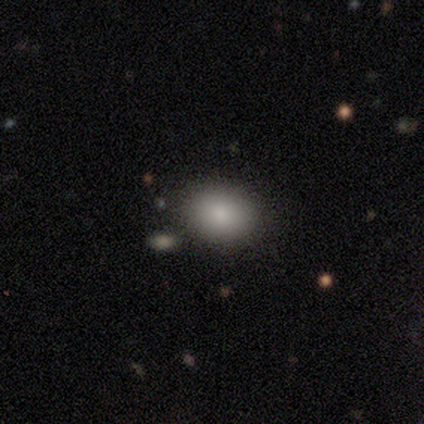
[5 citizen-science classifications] Smooth or featured?
  - smooth: 100% *
  - featured or disk: 0%
  - star or artifact: 0%
How rounded?
  - in between: 80% *
  - round: 20%
  - cigar-shaped: 0%
Merging?
  - none: 80% *
  - minor disturbance: 20%
  - major disturbance: 0%
  - merger: 0%